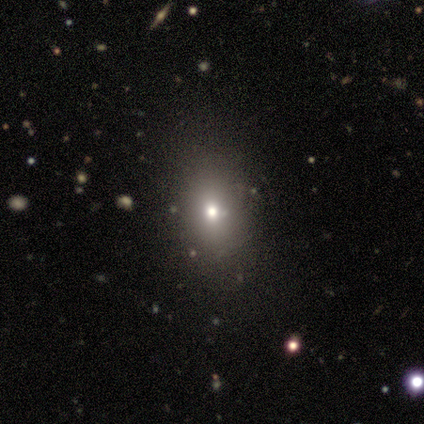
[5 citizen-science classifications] Volunteers were most divided on "merging" (2-way tie): none: 40%, minor disturbance: 40%, merger: 20%, major disturbance: 0%. More confident: how rounded — in between (100%); smooth or featured — smooth (60%).